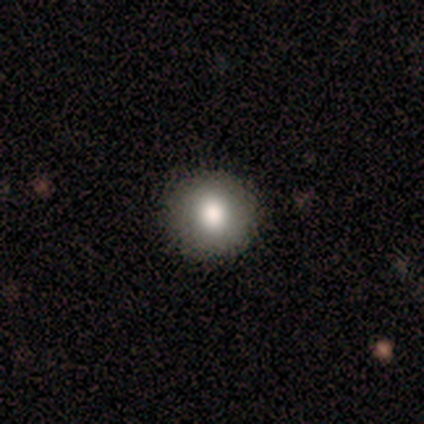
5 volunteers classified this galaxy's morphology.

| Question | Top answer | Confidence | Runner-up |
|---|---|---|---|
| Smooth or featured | smooth | 80% | star or artifact (20%) |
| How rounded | round | 75% | in between (25%) |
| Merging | none | 100% | — |